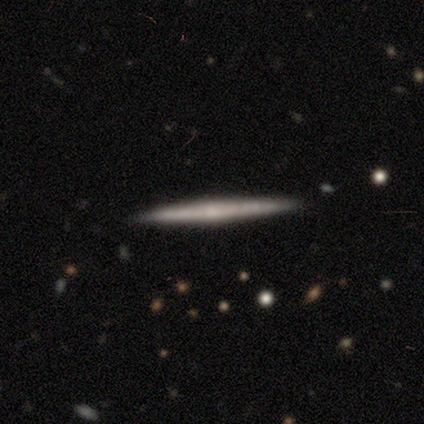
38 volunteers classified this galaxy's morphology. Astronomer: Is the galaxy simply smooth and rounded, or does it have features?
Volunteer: featured or disk — 66%.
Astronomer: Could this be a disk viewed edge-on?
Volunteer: yes — 96%.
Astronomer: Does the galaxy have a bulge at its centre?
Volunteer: none — 62%.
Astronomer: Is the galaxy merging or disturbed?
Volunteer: none — 94%.